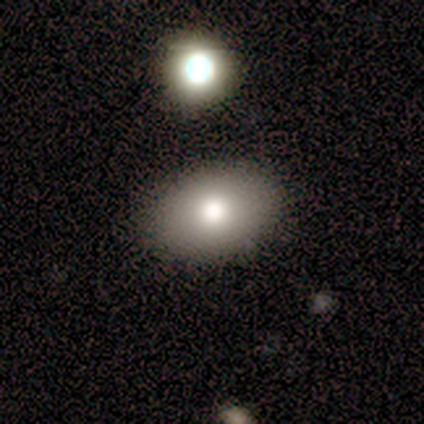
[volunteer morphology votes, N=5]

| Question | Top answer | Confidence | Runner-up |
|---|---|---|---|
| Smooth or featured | smooth | 100% | — |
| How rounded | in between | 80% | round (20%) |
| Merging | none | 80% | merger (20%) |